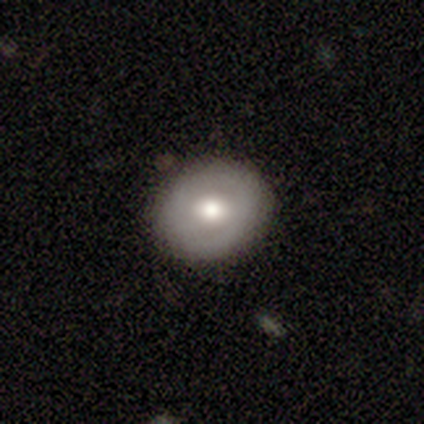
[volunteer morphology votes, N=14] smooth 71%, featured or disk 29%, star or artifact 0%. Down the decision tree: how rounded — round (80%); merging — none (86%).